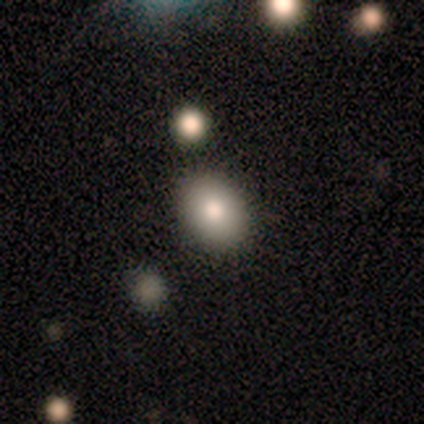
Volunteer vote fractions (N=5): Smooth or featured: smooth — 80% (star or artifact — 20%)
How rounded: round — 50% (tied with in between — 50%)
Merging: none — 50% (tied with merger — 50%)